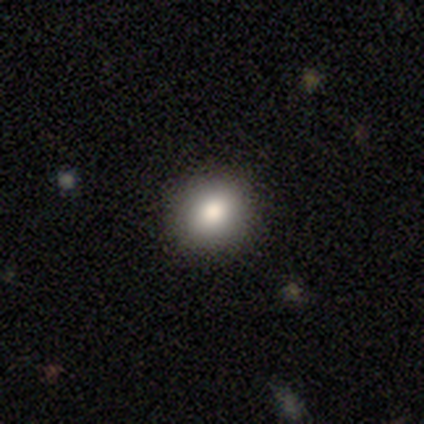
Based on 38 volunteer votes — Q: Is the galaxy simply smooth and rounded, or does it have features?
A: smooth — 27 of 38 (71%).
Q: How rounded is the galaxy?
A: round — 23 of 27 (85%).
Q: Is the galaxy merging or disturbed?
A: none — 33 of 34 (97%).